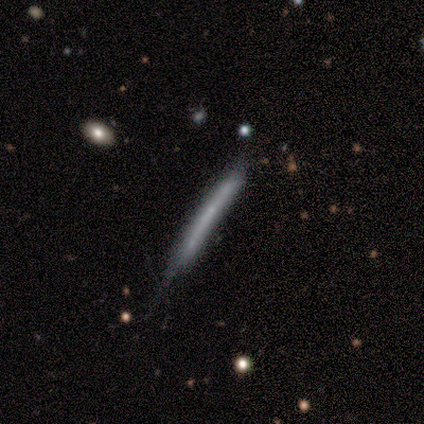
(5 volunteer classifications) smooth_or_featured: featured or disk (p=0.60) [alt: smooth p=0.40]
disk_edge_on: yes (p=1.00)
edge_on_bulge: none (p=0.67) [alt: rounded p=0.33]
merging: minor disturbance (p=0.80) [alt: none p=0.20]